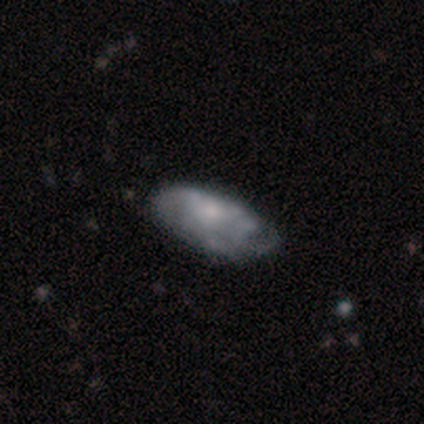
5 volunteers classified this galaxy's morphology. smooth-or-featured: featured or disk: 60% | smooth: 40% | star or artifact: 0%
  disk-edge-on: no: 100% | yes: 0%
    bar: no: 100% | strong: 0% | weak: 0%
    has-spiral-arms: yes: 100% | no: 0%
      spiral-winding: tight: 67% | loose: 33% | medium: 0%
      spiral-arm-count: can't tell: 67% | 3: 33% | 1: 0% | 2: 0% | 4: 0% | more than 4: 0%
    bulge-size: none: 67% | moderate: 33% | dominant: 0% | large: 0% | small: 0%
  merging: minor disturbance: 80% | none: 20% | major disturbance: 0% | merger: 0%